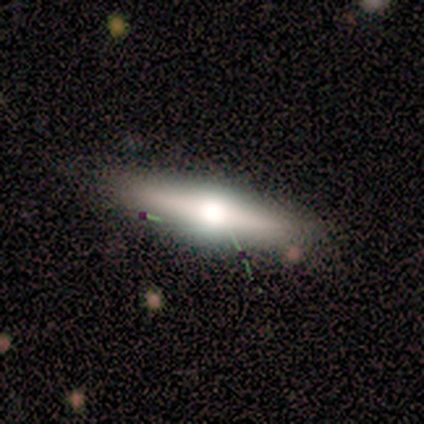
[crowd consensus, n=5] smooth_or_featured: featured or disk (p=0.60) [alt: smooth p=0.40]
disk_edge_on: yes (p=0.67) [alt: no p=0.33]
edge_on_bulge: rounded (p=1.00)
merging: none (p=0.60) [alt: minor disturbance p=0.20]